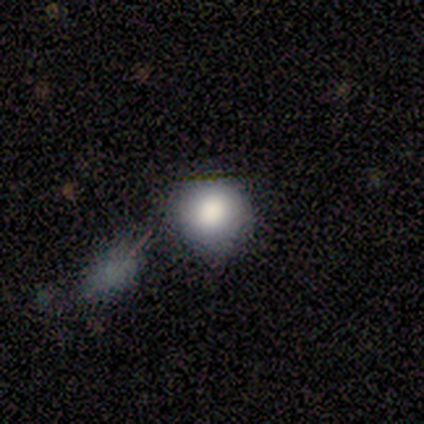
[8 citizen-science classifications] Smooth or featured? 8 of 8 (100%) said smooth. How rounded? 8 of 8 (100%) said round. Merging? 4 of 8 (50%) said none.